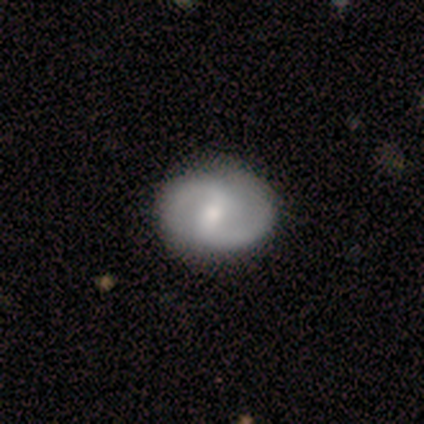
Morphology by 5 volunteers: Smooth or featured? 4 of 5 (80%) said featured or disk. Edge-on disk? 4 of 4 (100%) said no. Bar? 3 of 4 (75%) said strong. Spiral arms? 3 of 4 (75%) said yes. Spiral winding? 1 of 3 (33%, tied with medium and loose) said tight. Spiral arm count? 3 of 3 (100%) said 2. Bulge size? 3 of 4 (75%) said moderate. Merging? 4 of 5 (80%) said none.